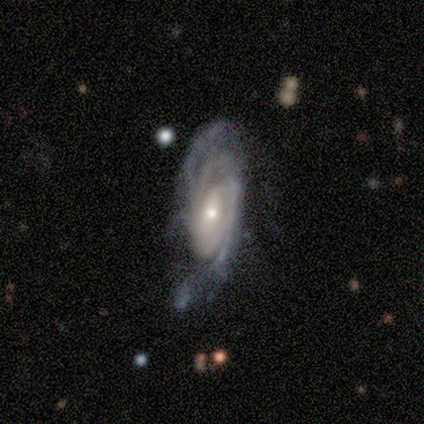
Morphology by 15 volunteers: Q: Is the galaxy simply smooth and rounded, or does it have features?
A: featured or disk — 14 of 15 (93%).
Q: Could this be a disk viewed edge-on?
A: no — 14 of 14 (100%).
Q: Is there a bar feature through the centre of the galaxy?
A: no — 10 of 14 (71%).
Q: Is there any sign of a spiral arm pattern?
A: yes — 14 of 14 (100%).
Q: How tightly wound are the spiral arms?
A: tight — 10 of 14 (71%).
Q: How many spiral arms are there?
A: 2 — 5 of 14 (36%).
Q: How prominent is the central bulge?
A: small — 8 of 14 (57%).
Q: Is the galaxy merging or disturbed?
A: none — 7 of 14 (50%).